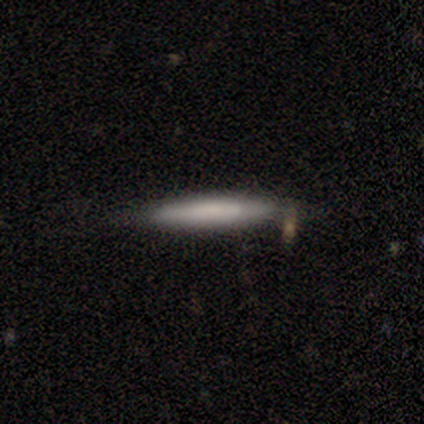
smooth 60%, featured or disk 20%, star or artifact 20%. Down the decision tree: how rounded — cigar-shaped (100%); merging — none (75%).